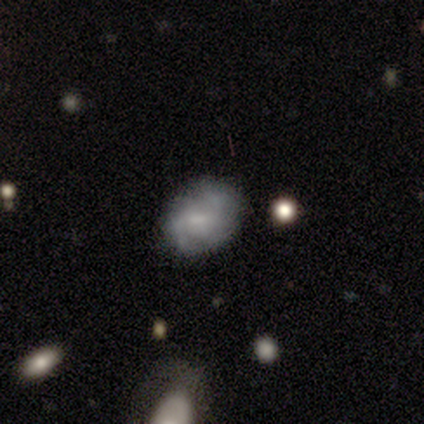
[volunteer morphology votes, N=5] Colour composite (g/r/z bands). It shows a smooth galaxy with no disk features (40%, tied with featured or disk) that is in between round and cigar-shaped (100%). Merging: none (100%).